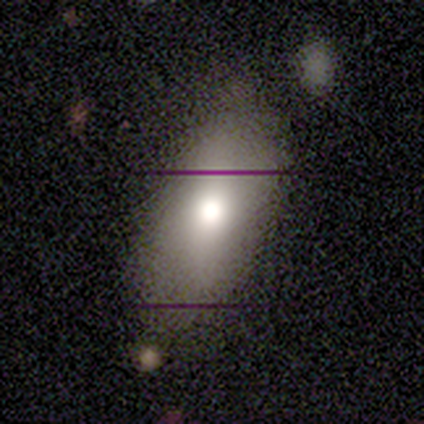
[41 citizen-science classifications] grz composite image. It shows a smooth galaxy with no disk features (61%) that is in between round and cigar-shaped (100%). Merging: none (56%).